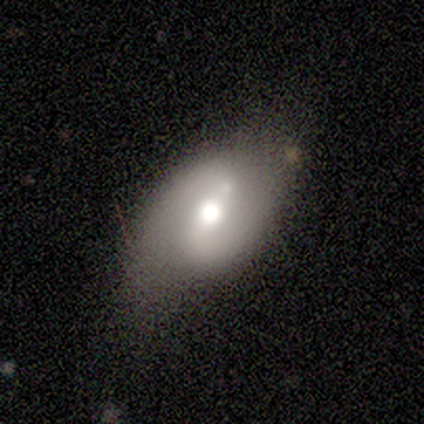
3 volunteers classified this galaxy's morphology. Smooth or featured?
  - featured or disk: 67% *
  - smooth: 33%
  - star or artifact: 0%
Edge-on disk?
  - no: 100% *
  - yes: 0%
Bar?
  - strong: 50% * (tied)
  - weak: 50% * (tied)
  - no: 0%
Spiral arms?
  - yes: 100% *
  - no: 0%
Spiral winding?
  - medium: 50% * (tied)
  - loose: 50% * (tied)
  - tight: 0%
Spiral arm count?
  - 2: 100% *
  - 1: 0%
  - 3: 0%
  - 4: 0%
  - more than 4: 0%
  - can't tell: 0%
Bulge size?
  - moderate: 100% *
  - dominant: 0%
  - large: 0%
  - small: 0%
  - none: 0%
Merging?
  - none: 33% * (tied)
  - minor disturbance: 33% * (tied)
  - major disturbance: 33% * (tied)
  - merger: 0%